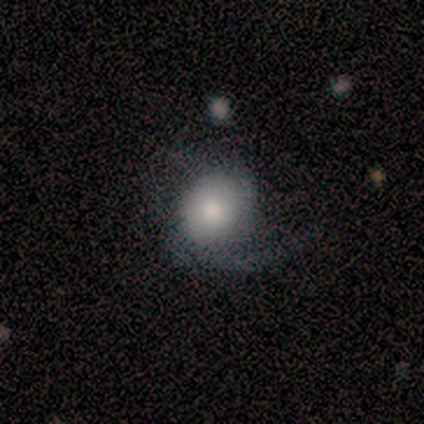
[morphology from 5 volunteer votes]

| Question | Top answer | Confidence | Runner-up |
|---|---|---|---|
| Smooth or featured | featured or disk | 60% | smooth (40%) |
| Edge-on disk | no | 100% | — |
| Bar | no | 100% | — |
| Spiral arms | yes | 100% | — |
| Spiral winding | loose | 67% | medium (33%) |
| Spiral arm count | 1 | 67% | 2 (33%) |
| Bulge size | moderate | 67% | large (33%) |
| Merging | none | 80% | minor disturbance (20%) |